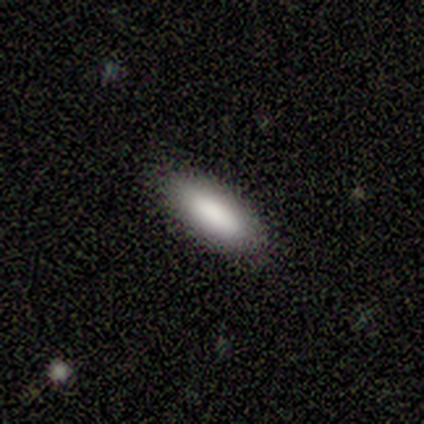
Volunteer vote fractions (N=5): Q: Smooth or featured?
A: smooth (100%)
Q: How rounded?
A: in between (80%); runner-up: cigar-shaped (20%)
Q: Merging?
A: none (80%); runner-up: minor disturbance (20%)